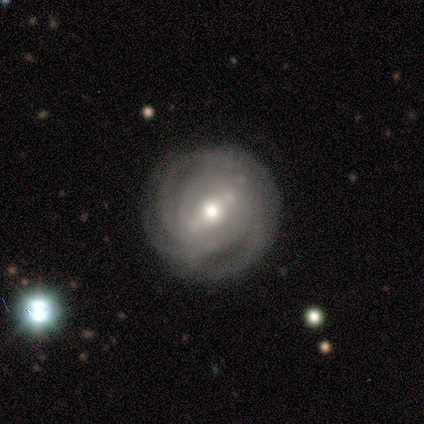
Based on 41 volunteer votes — Q: Smooth or featured?
A: featured or disk (88%); runner-up: smooth (7%)
Q: Edge-on disk?
A: no (94%); runner-up: yes (6%)
Q: Bar?
A: weak (41%); runner-up: strong (38%)
Q: Spiral arms?
A: yes (97%); runner-up: no (3%)
Q: Spiral winding?
A: tight (79%); runner-up: medium (15%)
Q: Spiral arm count?
A: can't tell (36%); runner-up: 3 (27%)
Q: Bulge size?
A: moderate (76%); runner-up: small (15%)
Q: Merging?
A: none (69%); runner-up: minor disturbance (26%)